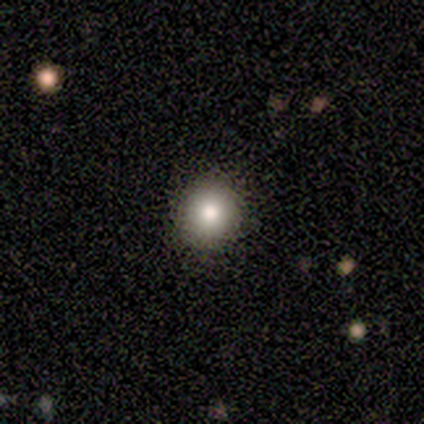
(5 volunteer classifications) Smooth or featured: smooth — 80% (featured or disk — 20%)
How rounded: round — 100%
Merging: none — 100%